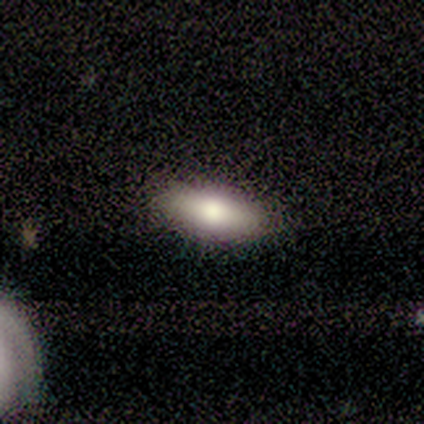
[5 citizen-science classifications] Q: Smooth or featured?
A: smooth (60%); runner-up: featured or disk (40%)
Q: How rounded?
A: in between (67%); runner-up: cigar-shaped (33%)
Q: Merging?
A: none (100%)